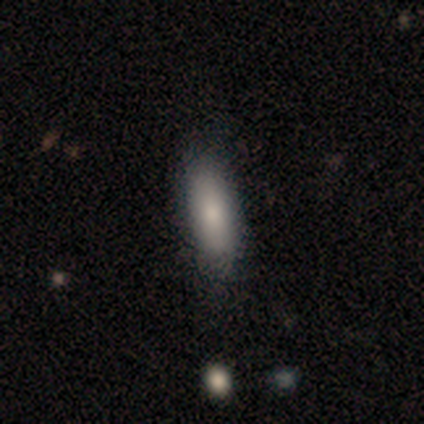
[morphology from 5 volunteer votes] Smooth or featured?
  - smooth: 80% *
  - featured or disk: 20%
  - star or artifact: 0%
How rounded?
  - in between: 50% * (tied)
  - cigar-shaped: 50% * (tied)
  - round: 0%
Merging?
  - none: 60% *
  - minor disturbance: 20%
  - merger: 20%
  - major disturbance: 0%